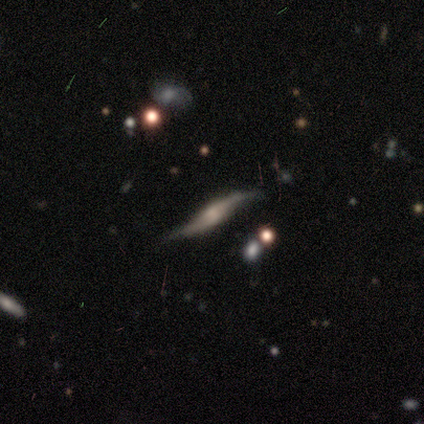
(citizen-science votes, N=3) This appears to be a featured or disk galaxy (100%) with no bar (100%), 2 (100%) loose (100%) spiral arms (100%) and a moderate central bulge (50%, tied with none). Merging: none (100%).